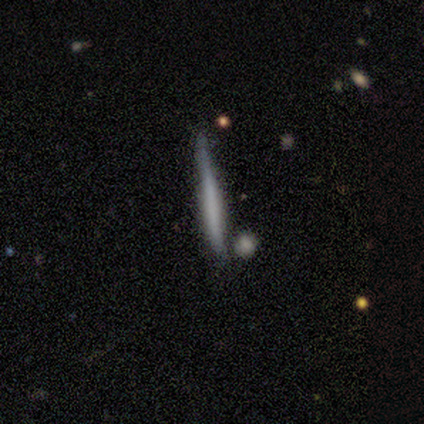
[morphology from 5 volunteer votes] Smooth or featured?
  - smooth: 100% *
  - featured or disk: 0%
  - star or artifact: 0%
How rounded?
  - cigar-shaped: 80% *
  - in between: 20%
  - round: 0%
Merging?
  - none: 100% *
  - minor disturbance: 0%
  - major disturbance: 0%
  - merger: 0%